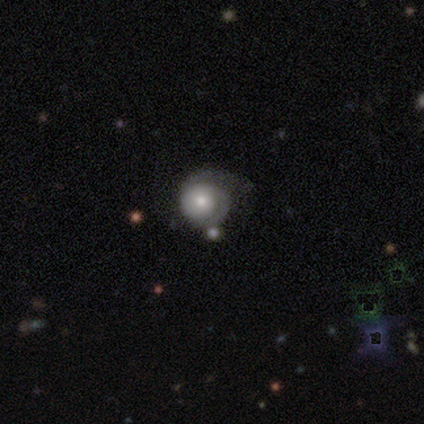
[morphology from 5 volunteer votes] A smooth galaxy with no disk features (80%) that is round (100%). Merging: major disturbance (60%).